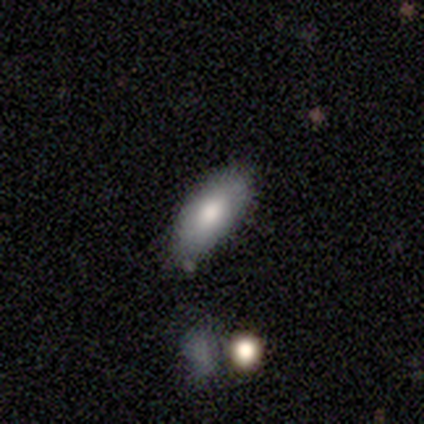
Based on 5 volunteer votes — Smooth or featured? smooth (80%)
How rounded? in between (100%)
Merging? none (100%)